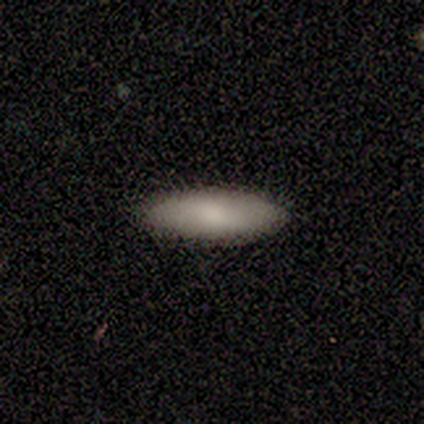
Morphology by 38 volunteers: Volunteers were most divided on "how rounded": in between: 74%, cigar-shaped: 26%, round: 0%. More confident: smooth or featured — smooth (92%); merging — none (86%).